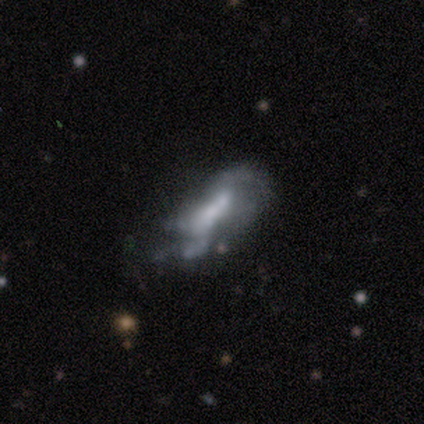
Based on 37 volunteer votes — Smooth or featured?
  - featured or disk: 73% *
  - smooth: 24%
  - star or artifact: 3%
Edge-on disk?
  - no: 89% *
  - yes: 11%
Bar?
  - no: 67% *
  - strong: 17%
  - weak: 17%
Spiral arms?
  - no: 58% *
  - yes: 42%
Bulge size?
  - none: 42% *
  - small: 29%
  - moderate: 21%
  - large: 8%
  - dominant: 0%
Merging?
  - minor disturbance: 36% *
  - major disturbance: 25%
  - none: 19%
  - merger: 19%